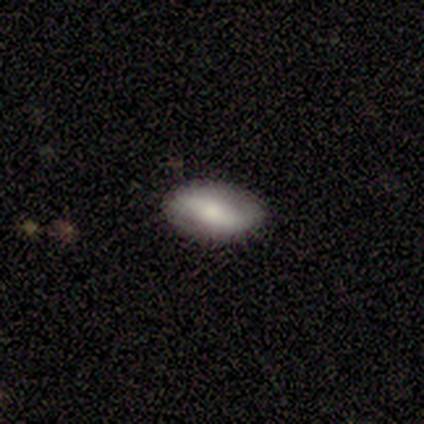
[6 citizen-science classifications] Morphology: type=smooth (67%); roundness=in between (100%); merging=none (100%).